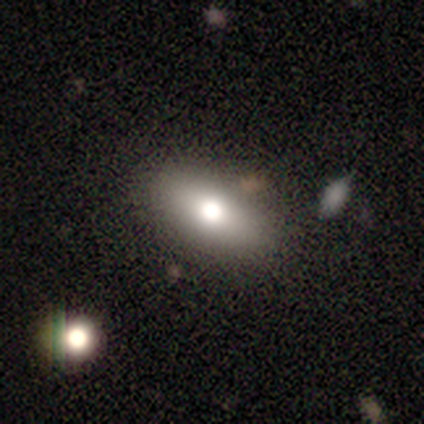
Smooth or featured? smooth (71%)
How rounded? in between (87%)
Merging? none (89%)